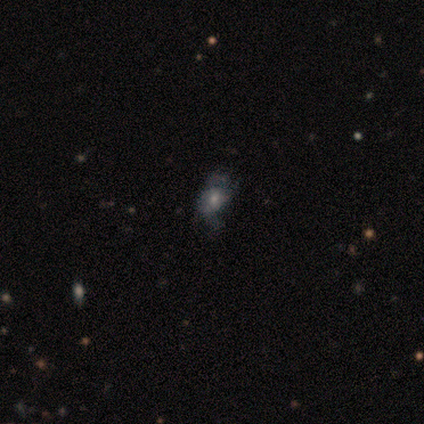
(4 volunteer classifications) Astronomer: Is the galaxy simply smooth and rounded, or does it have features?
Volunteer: smooth — 75%.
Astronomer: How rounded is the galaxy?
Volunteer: in between — 67%.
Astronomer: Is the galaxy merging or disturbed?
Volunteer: minor disturbance — 67%.